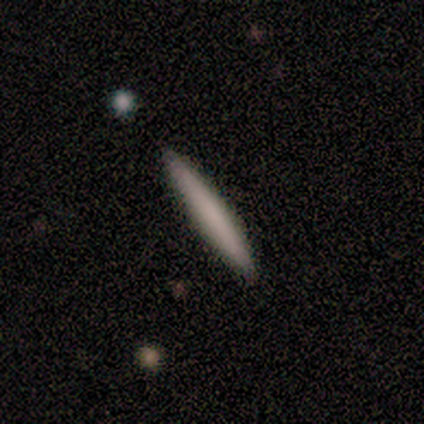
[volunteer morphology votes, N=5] Smooth or featured?
  - smooth: 80% *
  - featured or disk: 20%
  - star or artifact: 0%
How rounded?
  - cigar-shaped: 100% *
  - round: 0%
  - in between: 0%
Merging?
  - none: 100% *
  - minor disturbance: 0%
  - major disturbance: 0%
  - merger: 0%